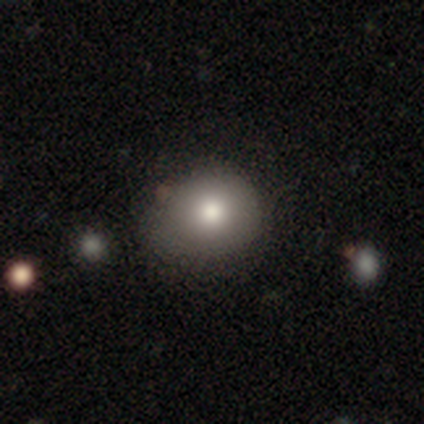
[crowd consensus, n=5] This appears to be a smooth galaxy with no disk features (40%, tied with featured or disk) that is round (50%, tied with in between). Merging: none (50%).